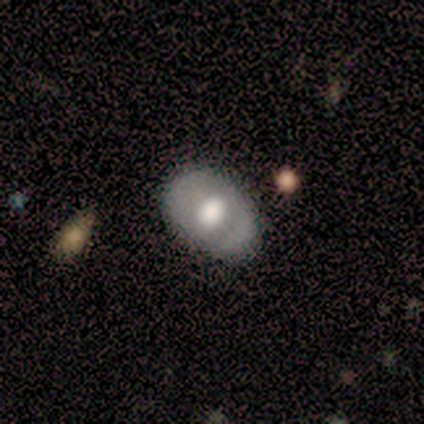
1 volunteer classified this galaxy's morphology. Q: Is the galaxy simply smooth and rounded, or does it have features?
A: featured or disk — 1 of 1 (100%).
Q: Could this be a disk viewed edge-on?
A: no — 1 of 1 (100%).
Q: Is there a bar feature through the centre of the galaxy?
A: no — 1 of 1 (100%).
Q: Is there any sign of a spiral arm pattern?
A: yes — 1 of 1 (100%).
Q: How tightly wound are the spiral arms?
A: tight — 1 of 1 (100%).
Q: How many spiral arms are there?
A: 2 — 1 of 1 (100%).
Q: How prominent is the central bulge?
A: large — 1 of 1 (100%).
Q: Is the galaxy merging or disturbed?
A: none — 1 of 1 (100%).